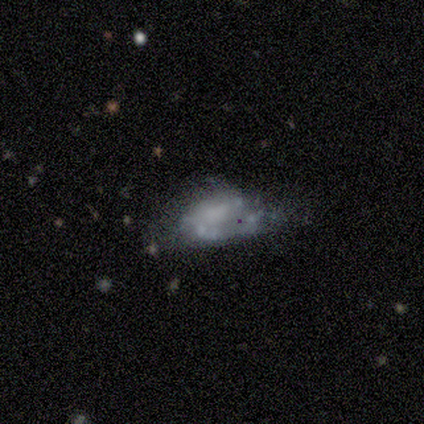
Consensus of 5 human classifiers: A smooth galaxy with no disk features (40%, tied with featured or disk) that is in between round and cigar-shaped (100%).

Vote fractions:
- Smooth or featured? smooth: 40% (tied) / featured or disk: 40% (tied) / star or artifact: 20%
- How rounded? in between: 100% / round: 0% / cigar-shaped: 0%
- Merging? minor disturbance: 50% / none: 25% / major disturbance: 25% / merger: 0%